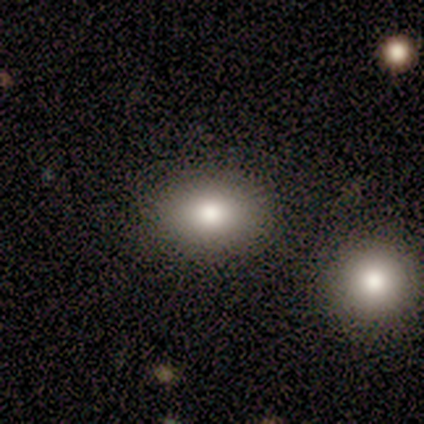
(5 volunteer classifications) smooth 80%, featured or disk 20%, star or artifact 0%. Down the decision tree: how rounded — in between (75%); merging — none (100%).